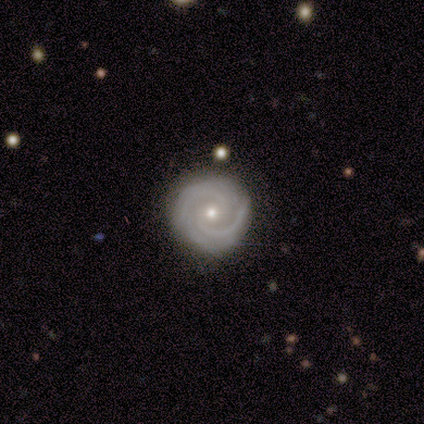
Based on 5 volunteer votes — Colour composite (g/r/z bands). It shows a featured or disk galaxy (100%) with no bar (80%), 2 (80%) tight (60%) spiral arms (100%) and a small central bulge (60%). Merging: none (100%).